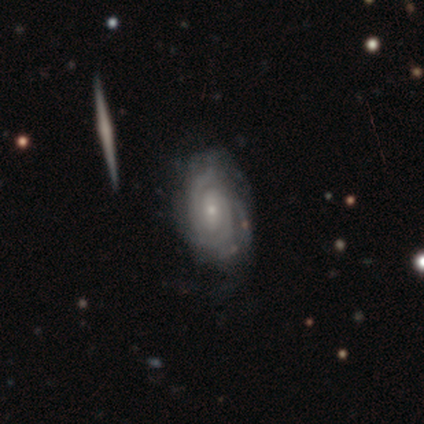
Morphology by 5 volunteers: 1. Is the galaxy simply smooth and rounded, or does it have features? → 100% featured or disk, 0% smooth, 0% star or artifact.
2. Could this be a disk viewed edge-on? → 100% no, 0% yes.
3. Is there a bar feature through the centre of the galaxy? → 60% no, 40% weak, 0% strong.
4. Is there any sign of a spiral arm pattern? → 100% yes, 0% no.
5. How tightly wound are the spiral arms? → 60% tight, 40% medium, 0% loose.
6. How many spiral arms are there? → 40% 2 (tied), 40% can't tell (tied), 20% 4, 0% 1, 0% 3, 0% more than 4.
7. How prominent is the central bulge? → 80% small, 20% moderate, 0% dominant, 0% large, 0% none.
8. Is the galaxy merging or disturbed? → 100% none, 0% minor disturbance, 0% major disturbance, 0% merger.